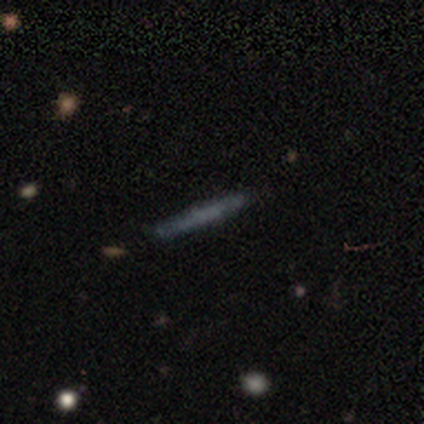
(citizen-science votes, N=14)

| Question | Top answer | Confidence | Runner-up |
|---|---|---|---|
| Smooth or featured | smooth | 64% | featured or disk (29%) |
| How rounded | cigar-shaped | 100% | — |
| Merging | none | 85% | minor disturbance (8%) |